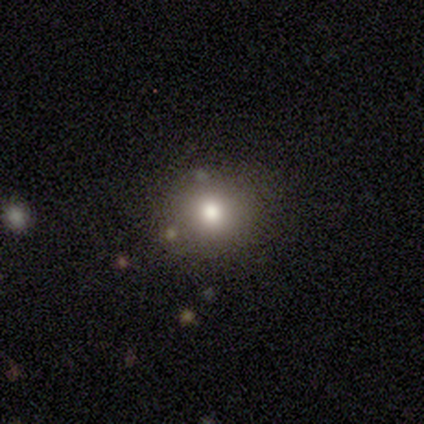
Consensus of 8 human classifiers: Smooth or featured? smooth (88%)
How rounded? round (86%)
Merging? none (88%)